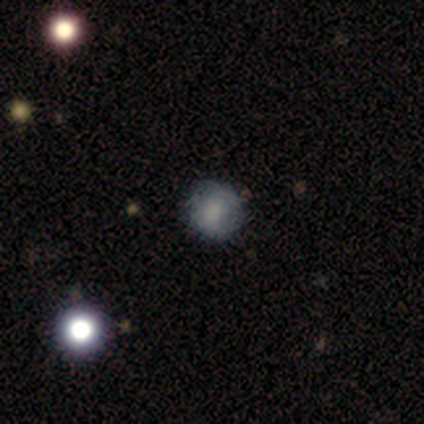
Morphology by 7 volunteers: smooth_or_featured: smooth (p=1.00)
how_rounded: round (p=1.00)
merging: none (p=1.00)